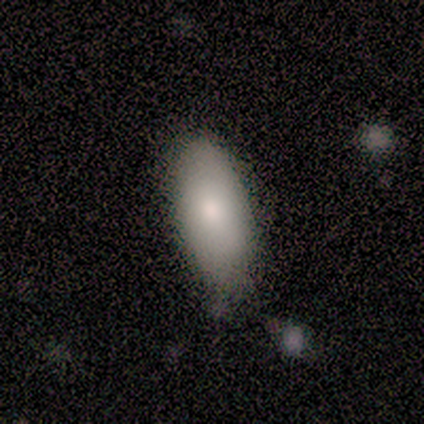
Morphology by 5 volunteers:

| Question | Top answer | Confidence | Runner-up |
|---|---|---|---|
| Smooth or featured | smooth | 100% | — |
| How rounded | in between | 80% | cigar-shaped (20%) |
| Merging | none | 60% | minor disturbance (40%) |